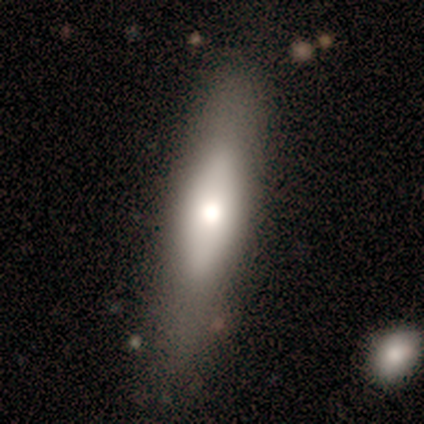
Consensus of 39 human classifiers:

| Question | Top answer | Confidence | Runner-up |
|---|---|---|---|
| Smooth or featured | smooth | 69% | featured or disk (28%) |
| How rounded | cigar-shaped | 85% | in between (15%) |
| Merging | none | 74% | minor disturbance (13%) |